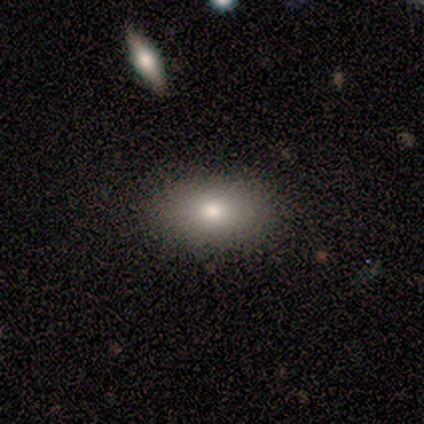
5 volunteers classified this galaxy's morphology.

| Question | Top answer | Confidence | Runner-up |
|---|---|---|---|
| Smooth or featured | smooth | 40% | tied: featured or disk (40%) |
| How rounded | in between | 100% | — |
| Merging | none | 75% | minor disturbance (25%) |